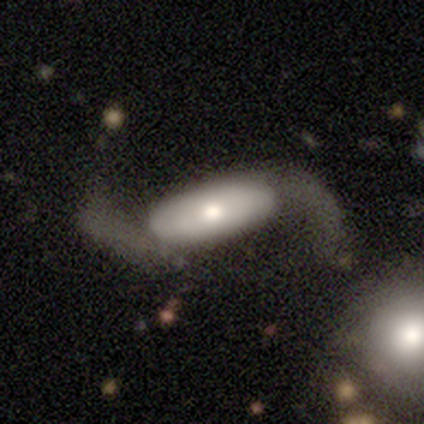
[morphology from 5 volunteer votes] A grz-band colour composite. It shows a featured or disk galaxy (100%) with a weak bar (40%, tied with no), 2 (100%) loose (100%) spiral arms (100%) and a moderate central bulge (60%). Merging: none (80%).